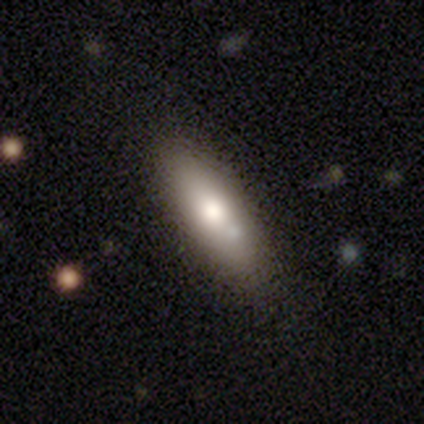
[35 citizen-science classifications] smooth 77%, featured or disk 17%, star or artifact 6%. Down the decision tree: how rounded — in between (74%); merging — none (88%).